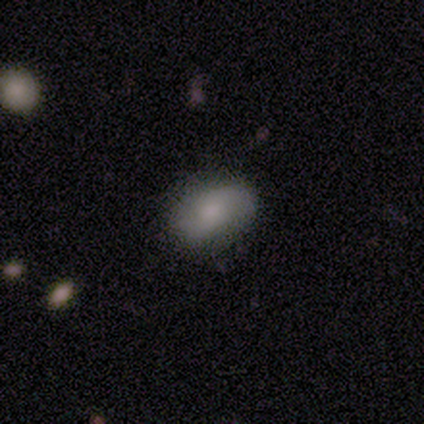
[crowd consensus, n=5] Smooth or featured?
  - smooth: 60% *
  - featured or disk: 20%
  - star or artifact: 20%
How rounded?
  - in between: 100% *
  - round: 0%
  - cigar-shaped: 0%
Merging?
  - none: 100% *
  - minor disturbance: 0%
  - major disturbance: 0%
  - merger: 0%